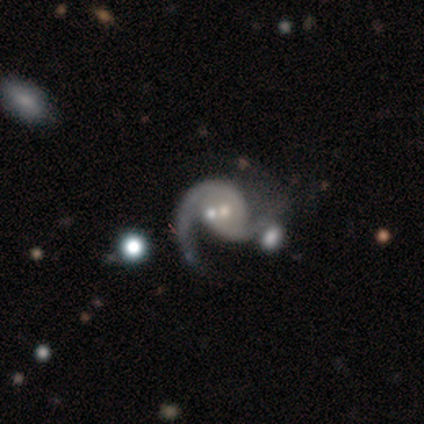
Smooth or featured?
  - featured or disk: 100% *
  - smooth: 0%
  - star or artifact: 0%
Edge-on disk?
  - no: 100% *
  - yes: 0%
Bar?
  - no: 80% *
  - weak: 20%
  - strong: 0%
Spiral arms?
  - yes: 100% *
  - no: 0%
Spiral winding?
  - medium: 60% *
  - loose: 40%
  - tight: 0%
Spiral arm count?
  - 2: 100% *
  - 1: 0%
  - 3: 0%
  - 4: 0%
  - more than 4: 0%
  - can't tell: 0%
Bulge size?
  - moderate: 60% *
  - small: 40%
  - dominant: 0%
  - large: 0%
  - none: 0%
Merging?
  - none: 40% *
  - minor disturbance: 20%
  - major disturbance: 20%
  - merger: 20%